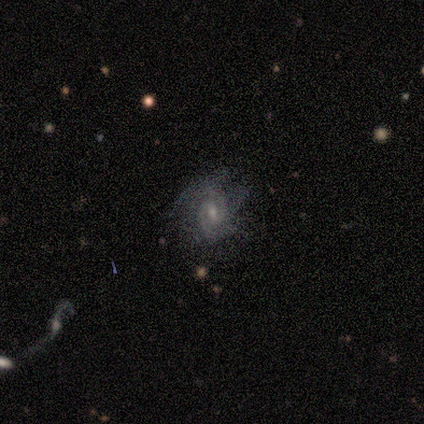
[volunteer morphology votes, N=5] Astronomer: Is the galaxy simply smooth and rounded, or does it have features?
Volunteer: featured or disk — 60% (runner-up: smooth, 40%).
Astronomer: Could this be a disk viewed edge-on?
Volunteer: no — 100%.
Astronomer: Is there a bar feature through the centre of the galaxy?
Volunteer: weak — 100%.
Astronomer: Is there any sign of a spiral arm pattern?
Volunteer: yes — 100%.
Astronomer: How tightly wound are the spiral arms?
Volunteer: tight — 33%, tied with medium and loose at 33%.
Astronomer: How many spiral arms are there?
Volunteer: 3 — 67%.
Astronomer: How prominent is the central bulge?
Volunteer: moderate — 100%.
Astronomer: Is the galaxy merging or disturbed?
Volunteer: minor disturbance — 60% (runner-up: none, 40%).